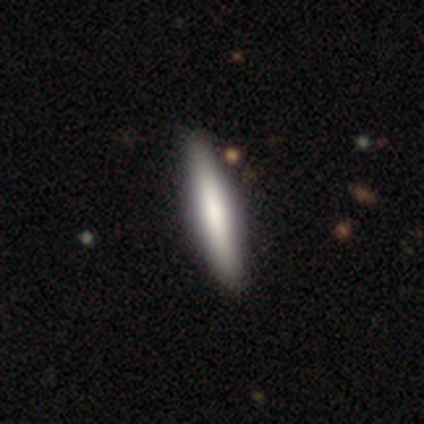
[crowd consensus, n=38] Smooth or featured?
  - smooth: 68% *
  - featured or disk: 29%
  - star or artifact: 3%
How rounded?
  - cigar-shaped: 88% *
  - in between: 12%
  - round: 0%
Merging?
  - none: 84% *
  - minor disturbance: 14%
  - major disturbance: 3%
  - merger: 0%